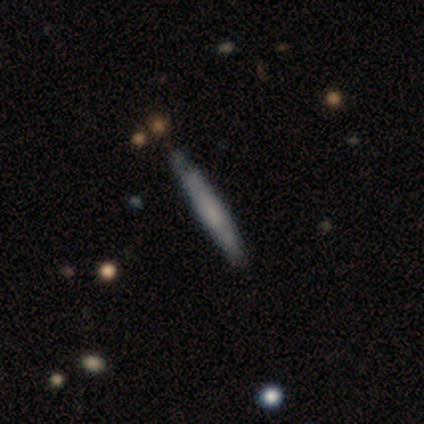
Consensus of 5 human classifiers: Overall: smooth (60%; featured or disk 40%). How rounded: cigar-shaped (100%). Merging: none (60%; minor disturbance 40%).